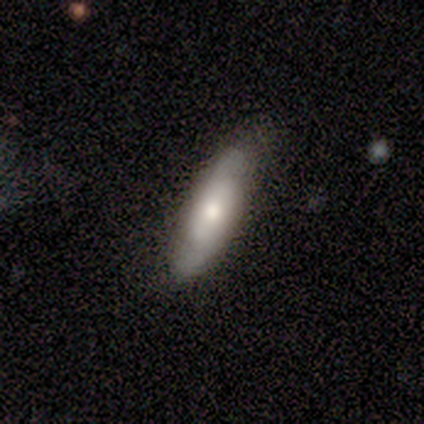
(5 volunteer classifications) This is clearly a featured or disk galaxy (80%). It is clearly not viewed edge-on (100%). Bar: clearly no (100%). Spiral arm pattern: likely yes (75%). Spiral arm count: clearly 2 (100%). Spiral winding: likely medium (67%). Central bulge: possibly moderate (50%). Merging: clearly none (100%).